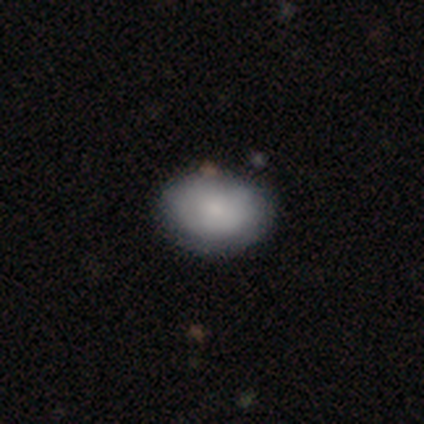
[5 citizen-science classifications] smooth_or_featured: smooth (p=0.80) [alt: featured or disk p=0.20]
how_rounded: round (p=0.75) [alt: in between p=0.25]
merging: none (p=0.80) [alt: minor disturbance p=0.20]